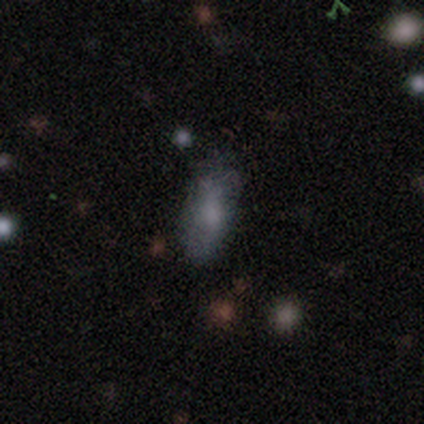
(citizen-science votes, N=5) Overall: smooth (100%). How rounded: in between (80%). Merging: none (80%).